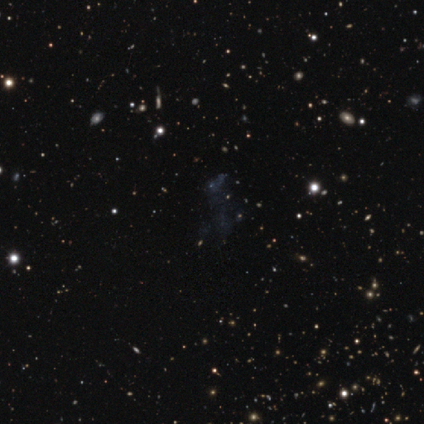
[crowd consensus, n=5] star or artifact 100%, smooth 0%, featured or disk 0%.